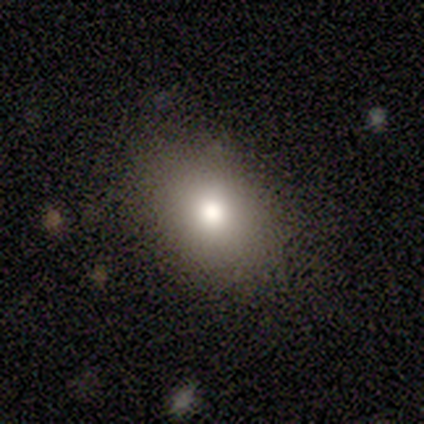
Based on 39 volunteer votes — Smooth or featured?
  - smooth: 87% *
  - featured or disk: 8%
  - star or artifact: 5%
How rounded?
  - in between: 62% *
  - round: 38%
  - cigar-shaped: 0%
Merging?
  - none: 68% *
  - minor disturbance: 11%
  - merger: 3%
  - major disturbance: 0%